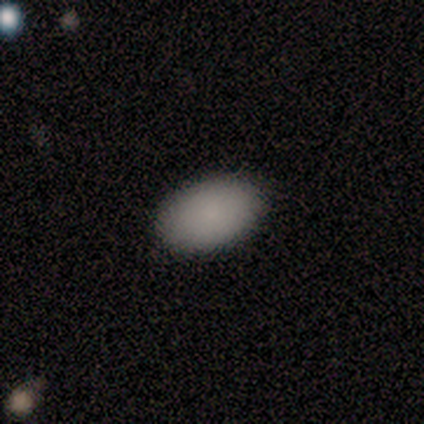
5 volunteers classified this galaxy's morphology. smooth_or_featured: smooth (p=1.00)
how_rounded: in between (p=0.80) [alt: round p=0.20]
merging: none (p=1.00)